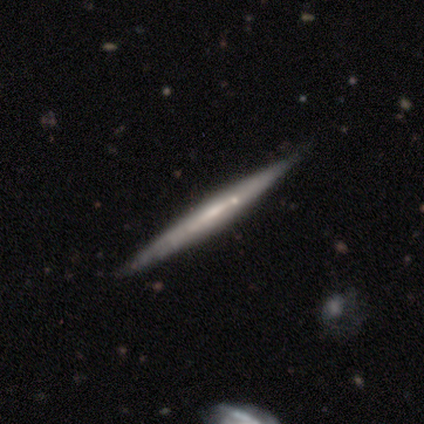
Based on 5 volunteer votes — Morphology: type=featured or disk (60%); edge-on=yes (100%); edge-on bulge=none (100%); merging=none (80%).